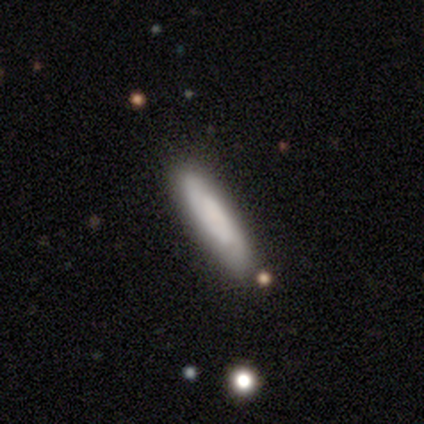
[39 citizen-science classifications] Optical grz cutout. It shows a smooth galaxy with no disk features (59%) that is cigar-shaped (74%). Merging: none (76%).